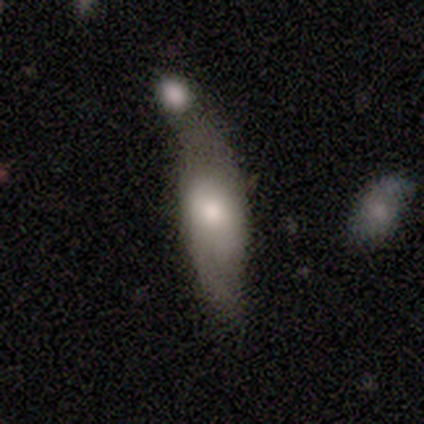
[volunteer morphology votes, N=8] smooth-or-featured: smooth: 62% | star or artifact: 25% | featured or disk: 12%
  how-rounded: cigar-shaped: 80% | round: 20% | in between: 0%
  merging: merger: 67% | none: 33% | minor disturbance: 0% | major disturbance: 0%